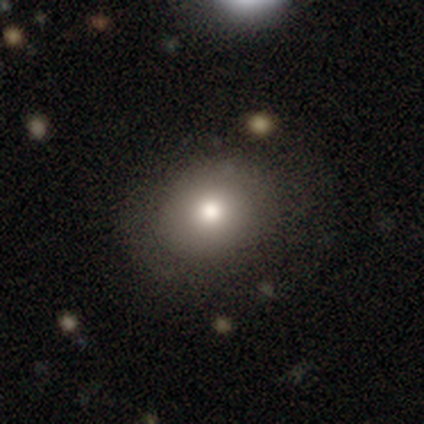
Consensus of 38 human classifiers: smooth 76%, featured or disk 21%, star or artifact 3%. Down the decision tree: how rounded — round (76%); merging — none (76%).